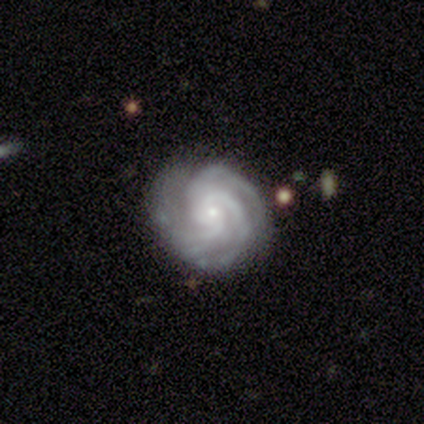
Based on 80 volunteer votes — A featured or disk galaxy (91%) with no bar (74%), 3 (75%) tight (72%) spiral arms (100%) and a small central bulge (83%). Merging: none (78%).